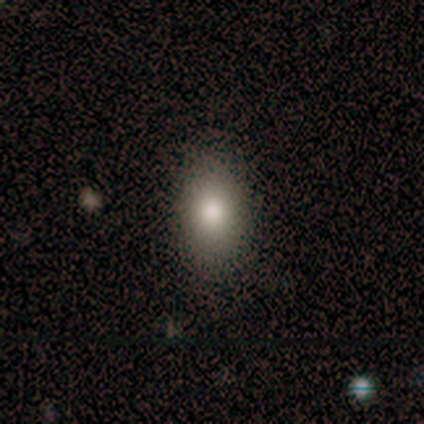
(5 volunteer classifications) Q: Smooth or featured?
A: smooth (100%)
Q: How rounded?
A: in between (100%)
Q: Merging?
A: none (100%)